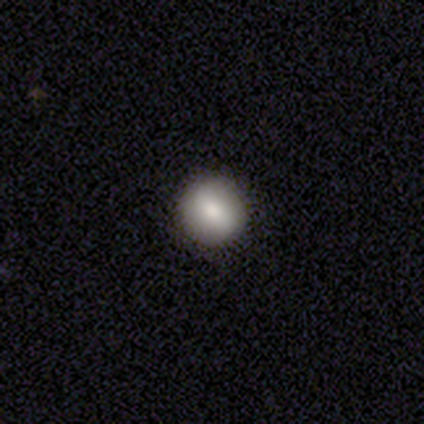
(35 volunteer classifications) Morphology: type=smooth (71%); roundness=round (96%); merging=none (97%).